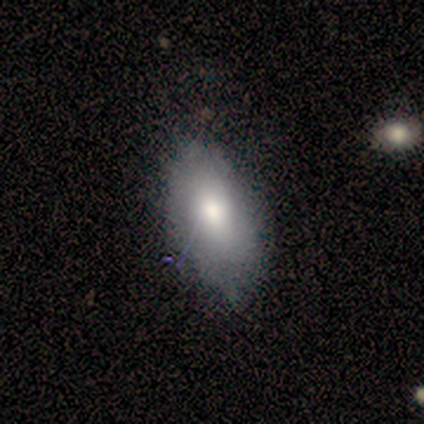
Smooth or featured? 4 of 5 (80%) said smooth. How rounded? 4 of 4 (100%) said in between. Merging? 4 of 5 (80%) said none.